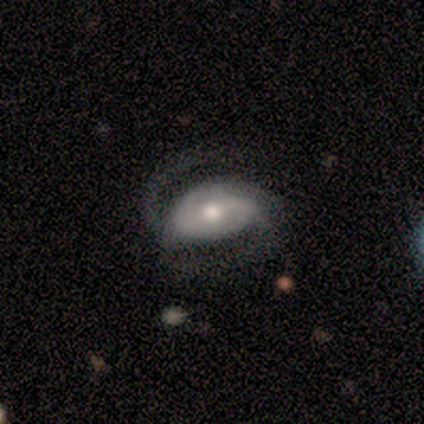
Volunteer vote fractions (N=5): Volunteers were most divided on "bar" (2-way tie): strong: 40%, weak: 40%, no: 20%. More confident: smooth or featured — featured or disk (100%); edge-on disk — no (100%); spiral arms — yes (100%); bulge size — moderate (80%); spiral winding — loose (60%); spiral arm count — 2 (60%); merging — none (60%).